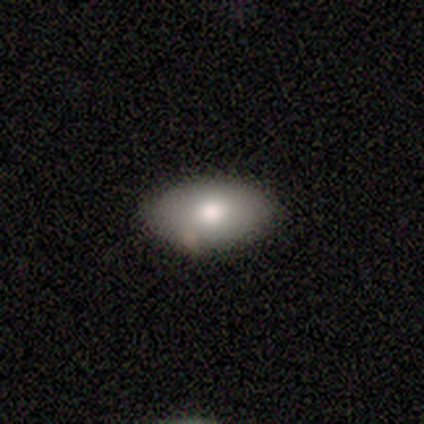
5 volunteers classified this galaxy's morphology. smooth-or-featured: smooth: 100% | featured or disk: 0% | star or artifact: 0%
  how-rounded: in between: 100% | round: 0% | cigar-shaped: 0%
  merging: none: 60% | minor disturbance: 40% | major disturbance: 0% | merger: 0%